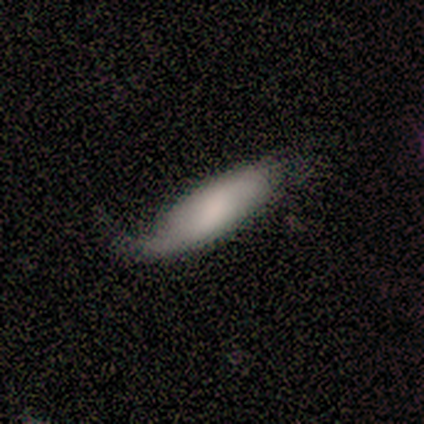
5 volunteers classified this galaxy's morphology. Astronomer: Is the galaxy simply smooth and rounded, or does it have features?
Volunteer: featured or disk — 80%.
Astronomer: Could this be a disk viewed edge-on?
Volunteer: no — 75%.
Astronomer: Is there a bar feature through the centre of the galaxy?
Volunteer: weak — 100%.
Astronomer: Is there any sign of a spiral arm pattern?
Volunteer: yes — 67%.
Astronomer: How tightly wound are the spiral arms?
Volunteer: loose — 100%.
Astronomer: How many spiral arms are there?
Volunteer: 2 — 100%.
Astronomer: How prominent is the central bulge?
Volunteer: moderate — 67%.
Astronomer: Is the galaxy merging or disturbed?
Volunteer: none — 60% (runner-up: minor disturbance, 40%).